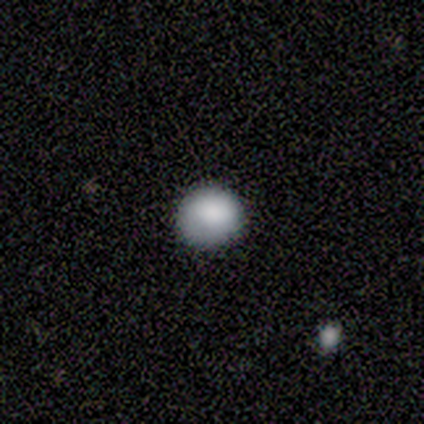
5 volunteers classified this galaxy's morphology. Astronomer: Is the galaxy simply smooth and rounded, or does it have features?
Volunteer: smooth — 100%.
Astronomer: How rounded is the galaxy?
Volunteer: round — 100%.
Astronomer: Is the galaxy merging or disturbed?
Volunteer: none — 100%.